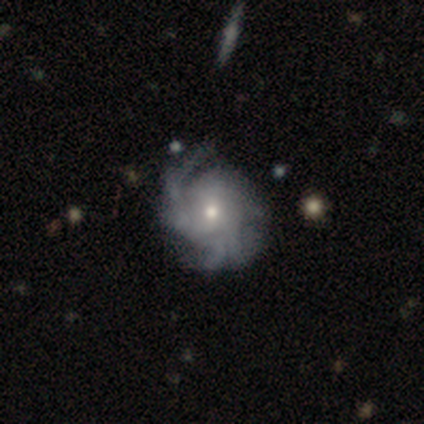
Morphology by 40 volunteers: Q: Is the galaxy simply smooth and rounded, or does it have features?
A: featured or disk — 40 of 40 (100%).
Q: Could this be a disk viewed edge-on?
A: no — 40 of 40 (100%).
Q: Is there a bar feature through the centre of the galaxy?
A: no — 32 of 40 (80%).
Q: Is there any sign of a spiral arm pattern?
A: yes — 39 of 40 (98%).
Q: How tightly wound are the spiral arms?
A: tight — 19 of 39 (49%).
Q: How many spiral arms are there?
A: can't tell — 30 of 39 (77%).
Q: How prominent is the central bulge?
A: moderate — 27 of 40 (68%).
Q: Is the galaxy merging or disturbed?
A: none — 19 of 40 (48%).